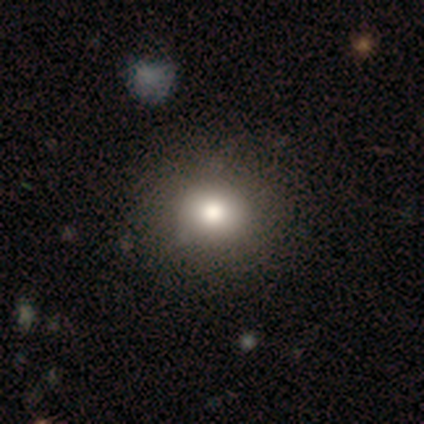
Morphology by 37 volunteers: This appears to be a smooth galaxy with no disk features (81%) that is round (90%). Merging: none (64%).